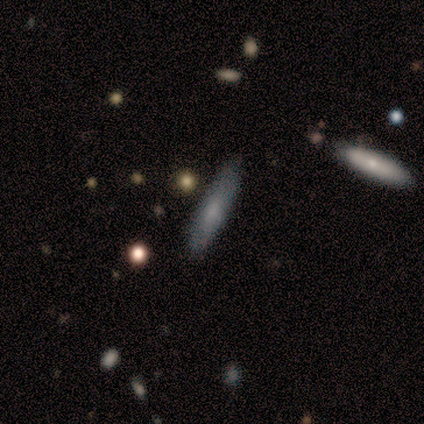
smooth_or_featured: smooth (p=0.80) [alt: featured or disk p=0.20]
how_rounded: cigar-shaped (p=1.00)
merging: none (p=0.80) [alt: minor disturbance p=0.20]